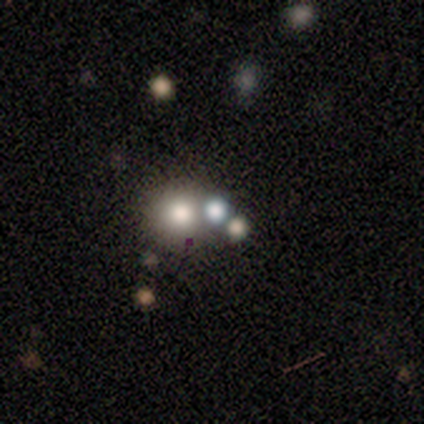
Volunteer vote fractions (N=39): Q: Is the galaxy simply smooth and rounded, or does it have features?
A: smooth — 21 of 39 (54%).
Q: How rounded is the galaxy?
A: round — 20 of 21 (95%).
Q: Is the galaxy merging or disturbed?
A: none — 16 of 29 (55%).